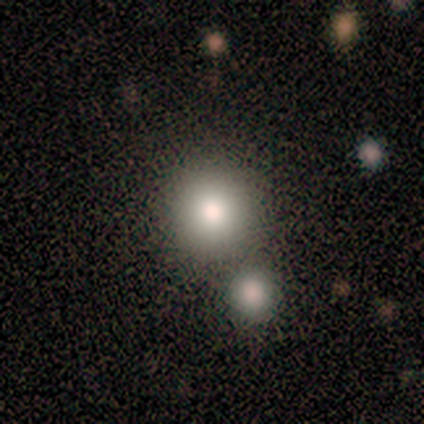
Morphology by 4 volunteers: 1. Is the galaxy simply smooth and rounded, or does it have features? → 50% smooth, 25% featured or disk, 25% star or artifact.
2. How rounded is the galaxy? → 100% round, 0% in between, 0% cigar-shaped.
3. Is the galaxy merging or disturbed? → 100% none, 0% minor disturbance, 0% major disturbance, 0% merger.